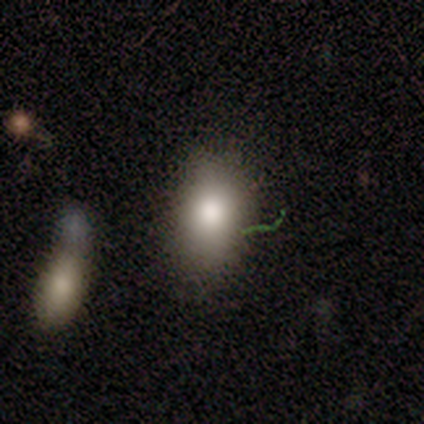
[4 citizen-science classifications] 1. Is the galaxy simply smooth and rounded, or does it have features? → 100% smooth, 0% featured or disk, 0% star or artifact.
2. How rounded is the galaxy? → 75% in between, 25% round, 0% cigar-shaped.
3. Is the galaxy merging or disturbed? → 50% none (tied), 50% minor disturbance (tied), 0% major disturbance, 0% merger.